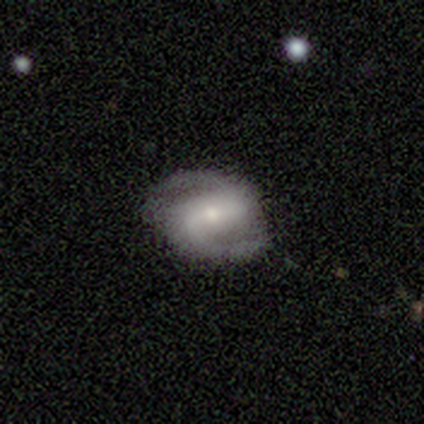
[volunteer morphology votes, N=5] type=featured or disk (100%); edge-on=no (100%); bar=weak (60%); spiral arms=yes (100%); winding=loose (60%); arm count=2 (100%); bulge=moderate (60%); merging=none (100%).